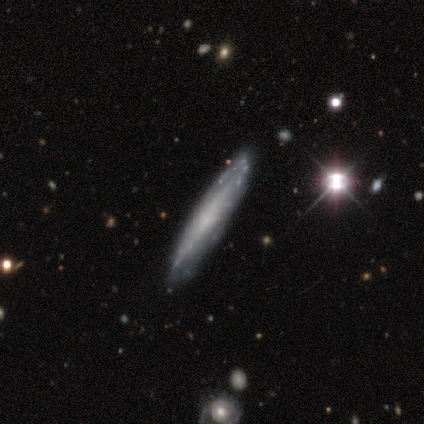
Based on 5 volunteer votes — Smooth or featured? smooth (60%)
How rounded? cigar-shaped (67%)
Merging? none (60%)